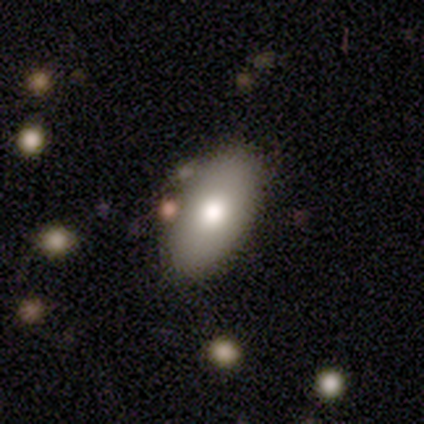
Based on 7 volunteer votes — Morphology: type=smooth (86%); roundness=in between (83%); merging=none (86%).